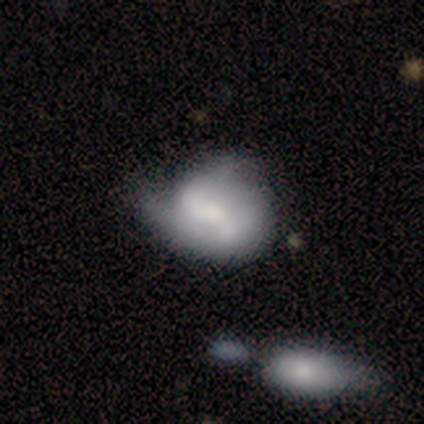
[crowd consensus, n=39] featured or disk 69%, smooth 18%, star or artifact 13%. Down the decision tree: edge-on disk — no (100%); bar — no (63%); spiral arms — yes (67%); spiral arm count — 2 (72%); spiral winding — medium (50%); bulge size — moderate (33%, tied with small); merging — minor disturbance (32%).